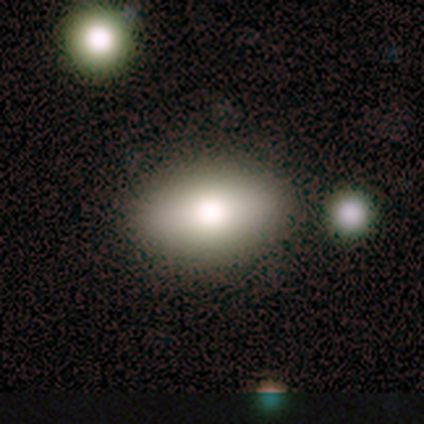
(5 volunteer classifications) Volunteers were most divided on "smooth or featured": smooth: 80%, featured or disk: 20%, star or artifact: 0%. More confident: how rounded — in between (100%); merging — none (80%).